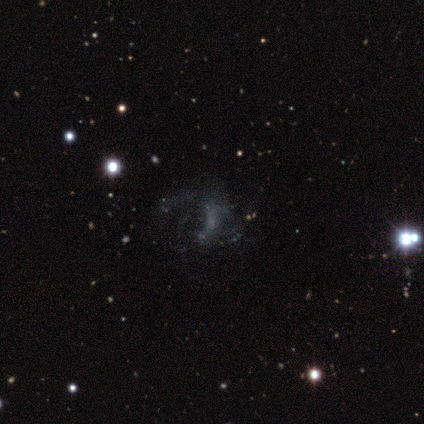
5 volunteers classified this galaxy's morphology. Overall: featured or disk (60%; star or artifact 40%). Edge-on disk: no (100%). Bar: no (67%; weak 33%). Spiral arms: yes (100%). Spiral arm count: 3 (67%; 1 33%). Spiral winding: loose (67%; medium 33%). Bulge size: small (67%; none 33%). Merging: none (100%).